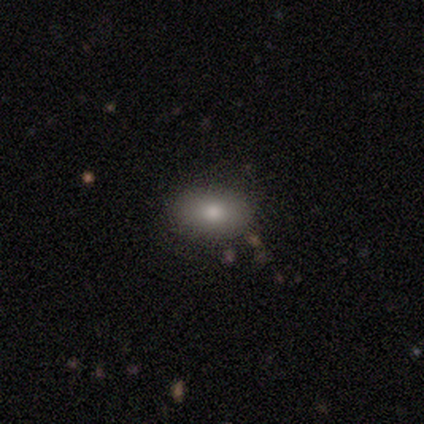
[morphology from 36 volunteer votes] smooth 72%, featured or disk 14%, star or artifact 14%. Down the decision tree: how rounded — in between (88%); merging — none (97%).